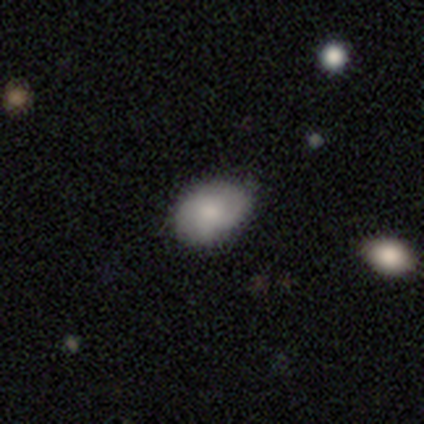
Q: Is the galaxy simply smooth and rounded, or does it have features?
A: smooth — 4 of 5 (80%).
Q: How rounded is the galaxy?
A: in between — 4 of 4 (100%).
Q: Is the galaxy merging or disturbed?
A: none — 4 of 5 (80%).